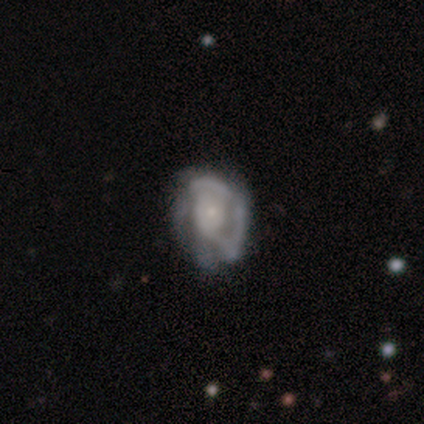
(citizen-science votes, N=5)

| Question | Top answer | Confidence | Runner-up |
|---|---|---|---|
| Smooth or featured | featured or disk | 80% | smooth (20%) |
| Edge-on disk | no | 100% | — |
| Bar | no | 100% | — |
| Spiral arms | yes | 50% | tied: no (50%) |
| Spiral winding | medium | 100% | — |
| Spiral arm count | can't tell | 100% | — |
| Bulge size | small | 75% | none (25%) |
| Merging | none | 60% | minor disturbance (40%) |